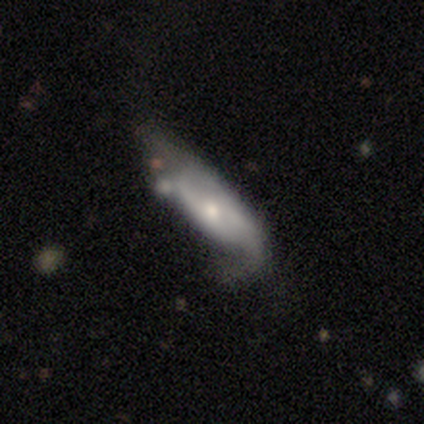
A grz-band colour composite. It shows a featured or disk galaxy (63%) with no bar (83%), 2 (71%) medium (43%) spiral arms (78%) and a moderate central bulge (61%). Merging: none (31%).